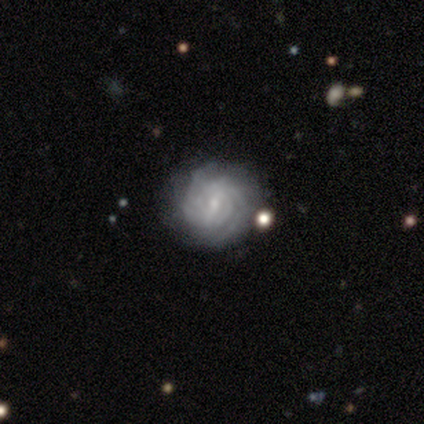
A featured or disk galaxy (83%) with a strong bar (33%, tied with weak and no), 2 (47%) tight (100%) spiral arms (100%) and a small central bulge (80%). Merging: none (100%).